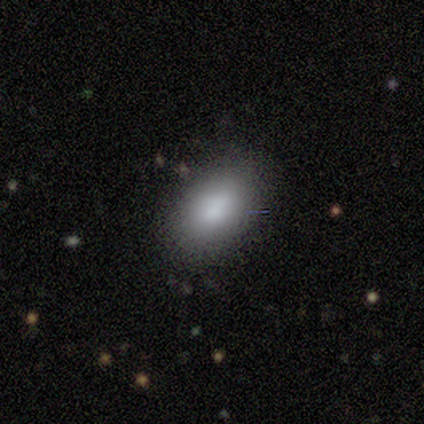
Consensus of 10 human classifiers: This is clearly a smooth galaxy (100%). How rounded: clearly in between (90%). Merging: likely none (70%).